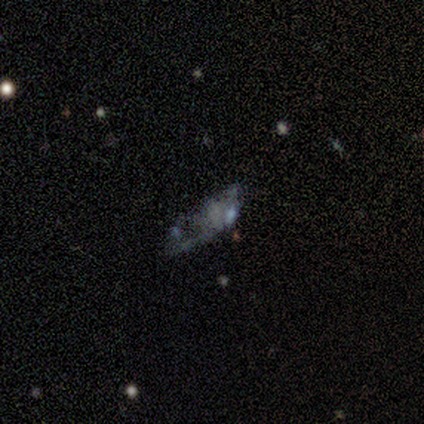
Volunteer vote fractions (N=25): Smooth or featured? featured or disk (56%)
Edge-on disk? no (100%)
Bar? no (93%)
Spiral arms? no (93%)
Bulge size? none (64%)
Merging? none (47%)